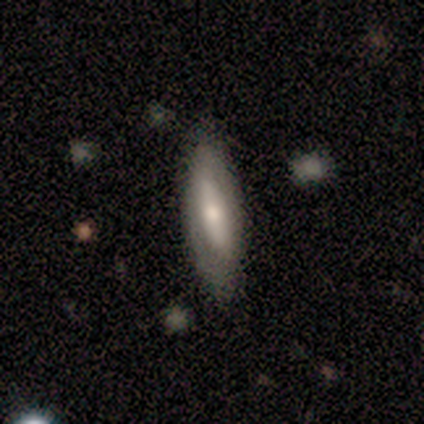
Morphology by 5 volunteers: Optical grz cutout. It shows a featured or disk galaxy (100%) with a strong bar (50%, tied with no), 2 (67%) tight (67%) spiral arms (75%) and a moderate central bulge (100%). Merging: none (100%).